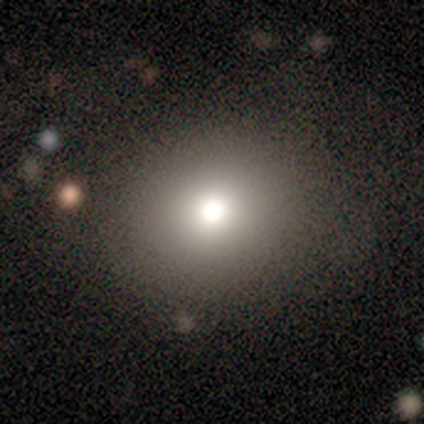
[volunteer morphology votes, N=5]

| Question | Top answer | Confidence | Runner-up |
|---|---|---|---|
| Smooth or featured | smooth | 40% | tied: star or artifact (40%) |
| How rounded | round | 100% | — |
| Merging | none | 67% | minor disturbance (33%) |